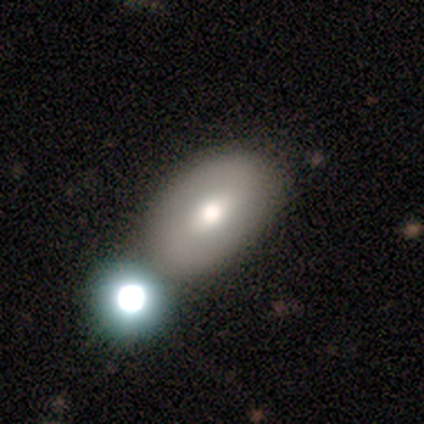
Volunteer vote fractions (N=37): Morphology: type=smooth (54%); roundness=in between (80%); merging=none (49%).